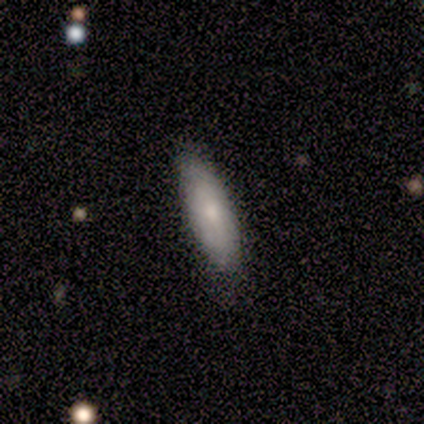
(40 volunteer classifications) Smooth or featured? 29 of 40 (72%) said smooth. How rounded? 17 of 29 (59%) said cigar-shaped. Merging? 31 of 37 (84%) said none.